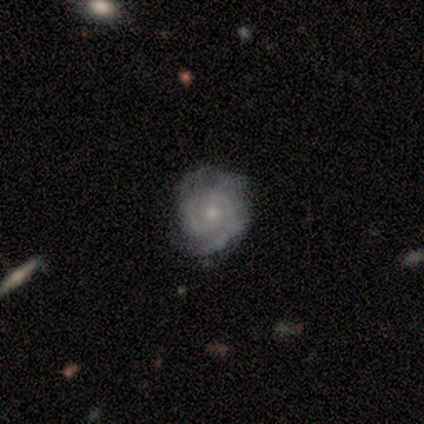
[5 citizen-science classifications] Smooth or featured: featured or disk — 100%
Edge-on disk: no — 100%
Bar: no — 100%
Spiral arms: yes — 80% (no — 20%)
Spiral winding: tight — 50% (tied with medium — 50%)
Spiral arm count: 2 — 75% (can't tell — 25%)
Bulge size: small — 100%
Merging: none — 80% (minor disturbance — 20%)